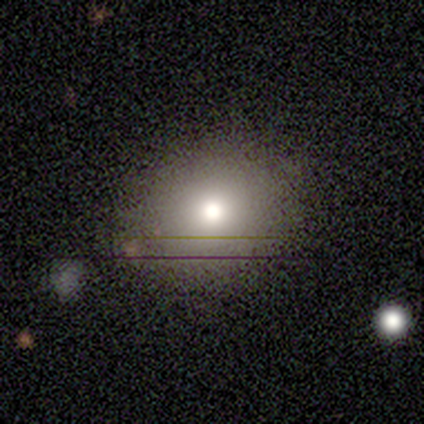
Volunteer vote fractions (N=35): A smooth galaxy with no disk features (66%) that is round (78%).

Vote fractions:
- Smooth or featured? smooth: 66% / featured or disk: 26% / star or artifact: 9%
- How rounded? round: 78% / in between: 22% / cigar-shaped: 0%
- Merging? none: 94% / minor disturbance: 6% / major disturbance: 0% / merger: 0%